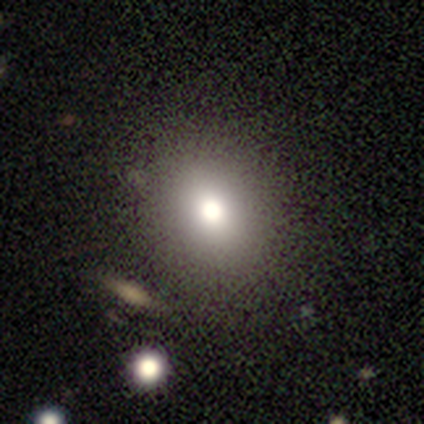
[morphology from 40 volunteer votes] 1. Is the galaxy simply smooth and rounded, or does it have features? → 75% smooth, 15% star or artifact, 10% featured or disk.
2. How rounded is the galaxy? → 63% round, 37% in between, 0% cigar-shaped.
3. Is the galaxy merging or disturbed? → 91% none, 6% merger, 3% minor disturbance, 0% major disturbance.